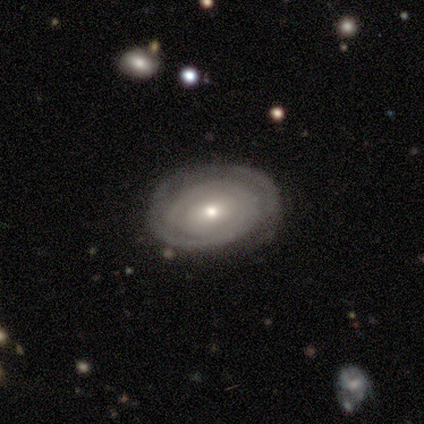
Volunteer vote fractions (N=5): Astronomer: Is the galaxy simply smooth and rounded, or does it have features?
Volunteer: featured or disk — 60% (runner-up: smooth, 40%).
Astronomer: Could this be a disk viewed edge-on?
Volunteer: no — 100%.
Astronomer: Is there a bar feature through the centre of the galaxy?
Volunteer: weak — 67%.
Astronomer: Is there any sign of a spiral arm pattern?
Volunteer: yes — 100%.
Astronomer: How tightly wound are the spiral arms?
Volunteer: tight — 67%.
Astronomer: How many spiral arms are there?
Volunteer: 1 — 33%, tied with 2 and can't tell at 33%.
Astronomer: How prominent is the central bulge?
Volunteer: small — 100%.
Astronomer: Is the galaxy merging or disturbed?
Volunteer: minor disturbance — 60% (runner-up: none, 40%).